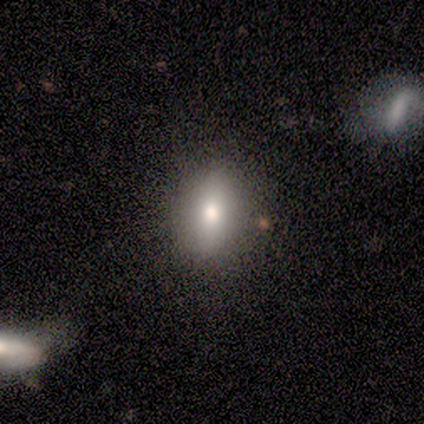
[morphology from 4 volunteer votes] smooth 50%, featured or disk 25%, star or artifact 25%. Down the decision tree: how rounded — in between (100%); merging — none (100%).